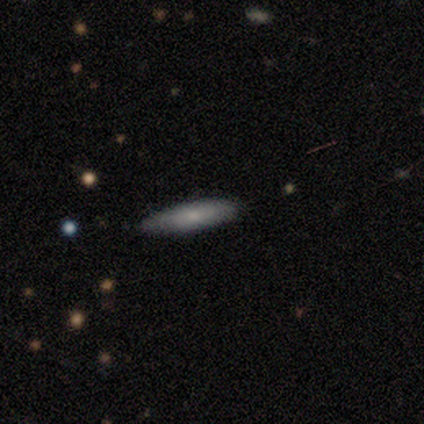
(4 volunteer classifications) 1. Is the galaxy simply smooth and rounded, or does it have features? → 100% smooth, 0% featured or disk, 0% star or artifact.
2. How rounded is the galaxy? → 75% cigar-shaped, 25% in between, 0% round.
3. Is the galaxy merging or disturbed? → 100% none, 0% minor disturbance, 0% major disturbance, 0% merger.